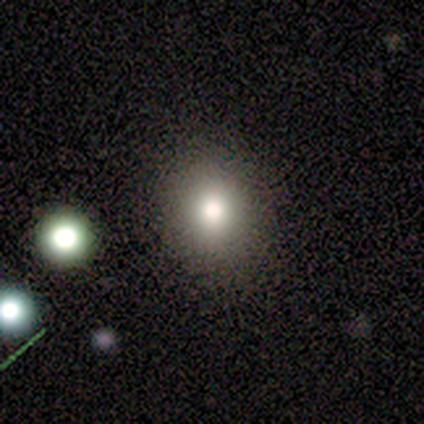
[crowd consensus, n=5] Smooth or featured? smooth (80%)
How rounded? round (75%)
Merging? none (100%)